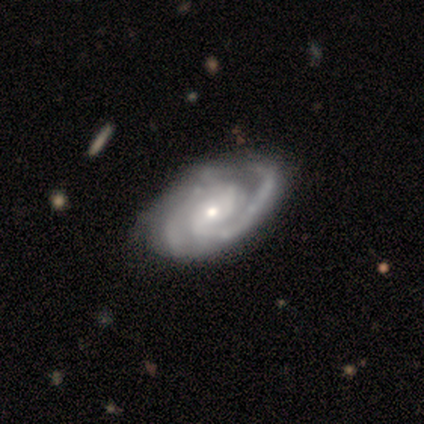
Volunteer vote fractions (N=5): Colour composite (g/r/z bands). It shows a featured or disk galaxy (80%) with no bar (50%), 2 (50%, tied with 3) tight (50%, tied with medium) spiral arms (100%) and a small central bulge (100%). Merging: none (60%).